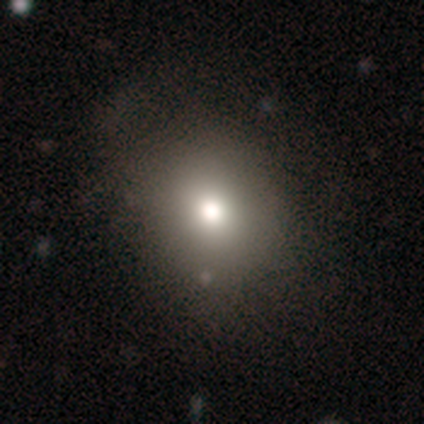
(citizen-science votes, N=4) A smooth galaxy with no disk features (75%) that is round (100%).

Vote fractions:
- Smooth or featured? smooth: 75% / featured or disk: 25% / star or artifact: 0%
- How rounded? round: 100% / in between: 0% / cigar-shaped: 0%
- Merging? none: 75% / minor disturbance: 25% / major disturbance: 0% / merger: 0%